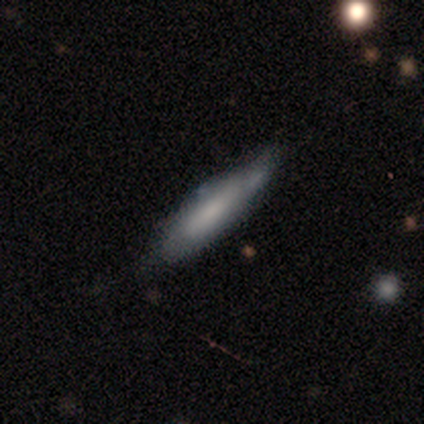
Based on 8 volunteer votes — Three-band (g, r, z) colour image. It shows a smooth galaxy with no disk features (75%) that is cigar-shaped (100%). Merging: none (62%).